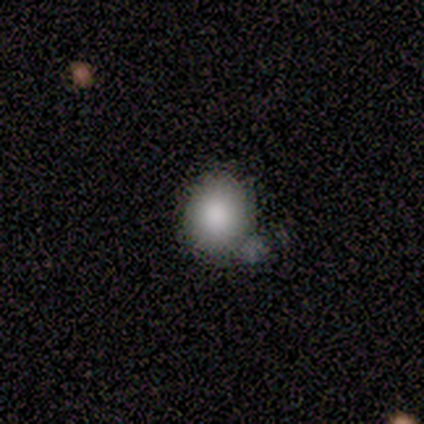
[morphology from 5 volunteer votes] Smooth or featured? 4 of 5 (80%) said smooth. How rounded? 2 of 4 (50%, tied with in between) said round. Merging? 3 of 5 (60%) said none.